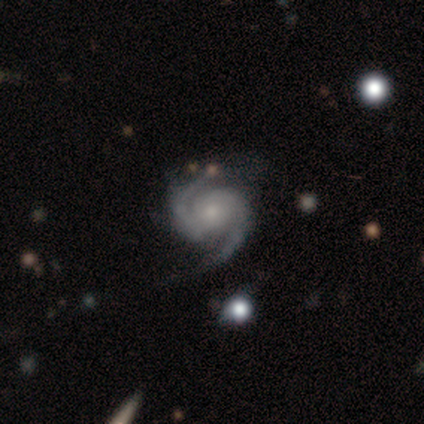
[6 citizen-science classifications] Morphology: type=featured or disk (100%); edge-on=no (100%); bar=no (83%); spiral arms=yes (100%); winding=medium (67%); arm count=2 (100%); bulge=moderate (50%, tied with small); merging=none (83%).